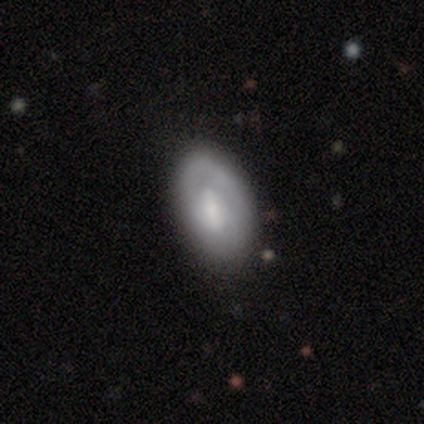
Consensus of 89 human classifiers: Smooth or featured? smooth (53%)
How rounded? in between (94%)
Merging? none (77%)